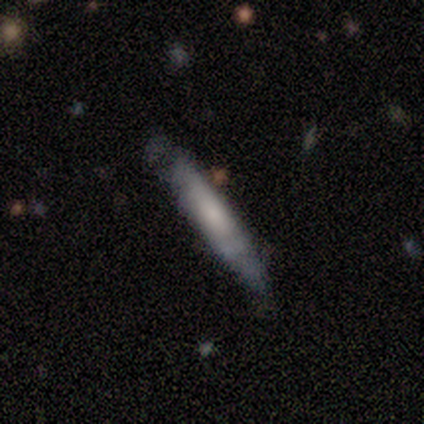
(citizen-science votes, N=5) A featured or disk galaxy (60%) viewed edge-on (100%) with no central bulge (67%). Merging: none (60%).